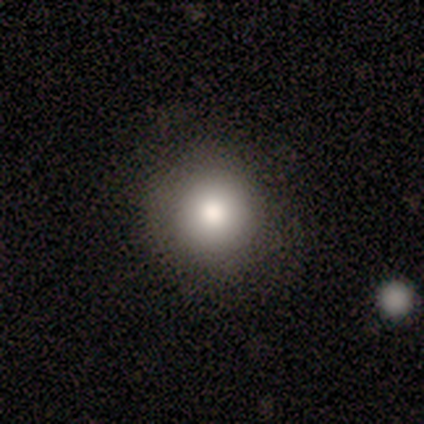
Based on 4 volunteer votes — Overall: smooth (50%; featured or disk 25%). How rounded: round (100%). Merging: none (33%, tied with minor disturbance and major disturbance).